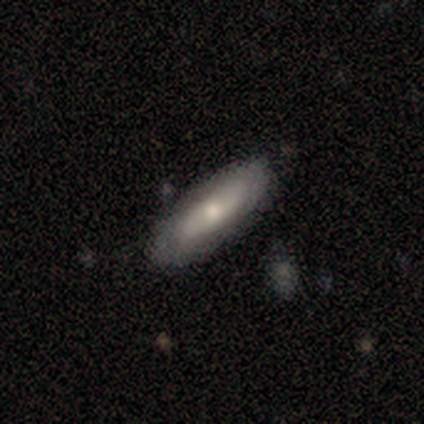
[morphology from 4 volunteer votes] Smooth or featured: smooth — 75% (featured or disk — 25%)
How rounded: in between — 100%
Merging: none — 75% (minor disturbance — 25%)